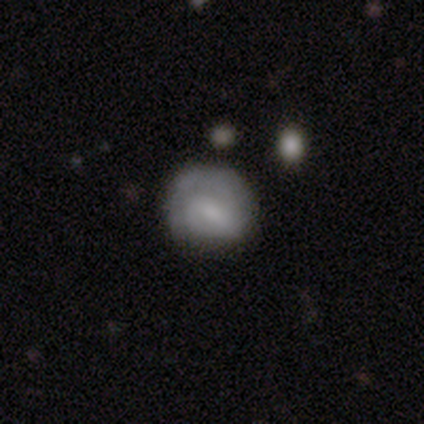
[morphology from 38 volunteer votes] smooth-or-featured: featured or disk: 71% | smooth: 29% | star or artifact: 0%
  disk-edge-on: no: 100% | yes: 0%
    bar: weak: 41% | no: 33% | strong: 26%
    has-spiral-arms: yes: 89% | no: 11%
      spiral-winding: tight: 71% | medium: 25% | loose: 4%
      spiral-arm-count: 2: 46% | 1: 29% | can't tell: 25% | 3: 0% | 4: 0% | more than 4: 0%
    bulge-size: small: 44% | none: 33% | moderate: 19% | large: 4% | dominant: 0%
  merging: none: 37% | minor disturbance: 32% | major disturbance: 8% | merger: 0%